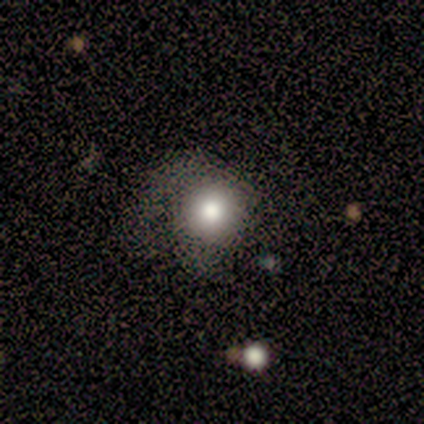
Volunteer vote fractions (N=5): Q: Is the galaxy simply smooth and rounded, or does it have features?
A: smooth — 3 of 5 (60%).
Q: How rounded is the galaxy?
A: round — 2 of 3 (67%).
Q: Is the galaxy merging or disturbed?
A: none — 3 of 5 (60%).